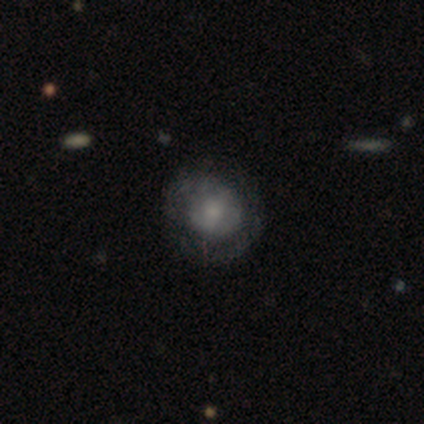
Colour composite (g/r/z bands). It shows a featured or disk galaxy (80%) with no bar (100%), 1 (50%, tied with can't tell) tight (50%, tied with medium) spiral arms (50%, tied with no) and a moderate central bulge (50%). Merging: none (80%).